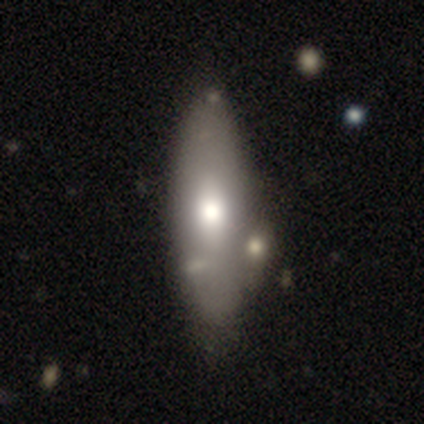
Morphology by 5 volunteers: Smooth or featured: smooth — 100%
How rounded: in between — 60% (cigar-shaped — 40%)
Merging: none — 80% (minor disturbance — 20%)